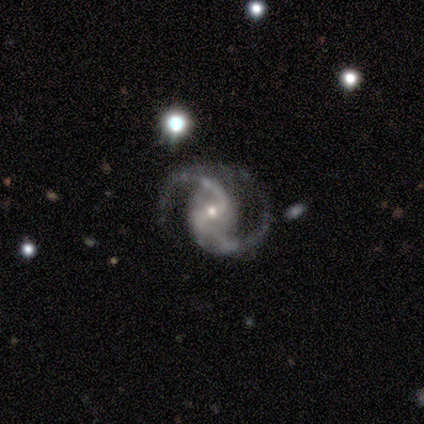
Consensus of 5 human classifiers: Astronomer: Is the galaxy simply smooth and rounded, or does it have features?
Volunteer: featured or disk — 100%.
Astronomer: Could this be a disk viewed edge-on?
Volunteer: no — 100%.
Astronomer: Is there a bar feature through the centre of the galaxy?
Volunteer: weak — 80%.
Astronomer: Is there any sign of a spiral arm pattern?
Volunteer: yes — 100%.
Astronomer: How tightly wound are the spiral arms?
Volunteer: medium — 80%.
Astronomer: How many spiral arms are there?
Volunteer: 2 — 100%.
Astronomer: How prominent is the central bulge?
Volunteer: small — 100%.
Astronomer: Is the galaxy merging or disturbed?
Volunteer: none — 100%.